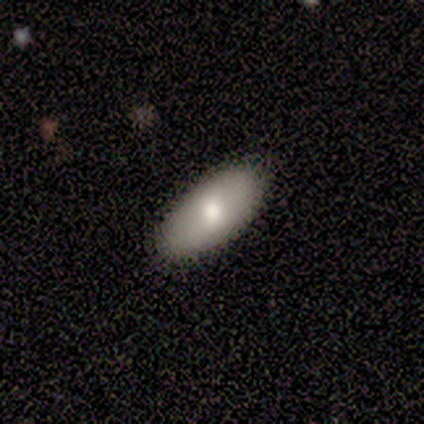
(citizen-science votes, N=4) Q: Smooth or featured?
A: smooth (75%); runner-up: featured or disk (25%)
Q: How rounded?
A: in between (100%)
Q: Merging?
A: none (75%); runner-up: minor disturbance (25%)